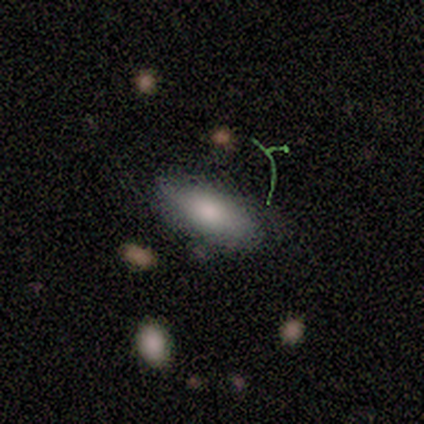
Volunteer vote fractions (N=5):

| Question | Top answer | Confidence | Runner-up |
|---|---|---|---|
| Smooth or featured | smooth | 100% | — |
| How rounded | in between | 60% | round (20%) |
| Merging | none | 60% | minor disturbance (20%) |